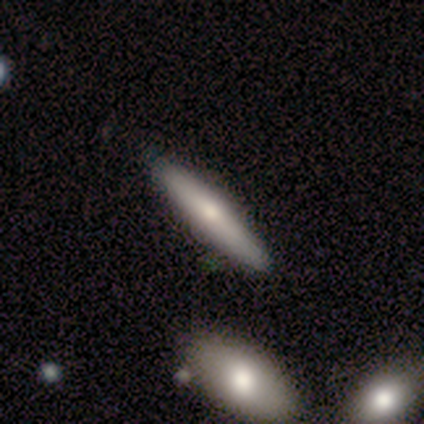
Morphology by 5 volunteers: This is likely a smooth galaxy (60%). How rounded: clearly cigar-shaped (100%). Merging: clearly none (100%).